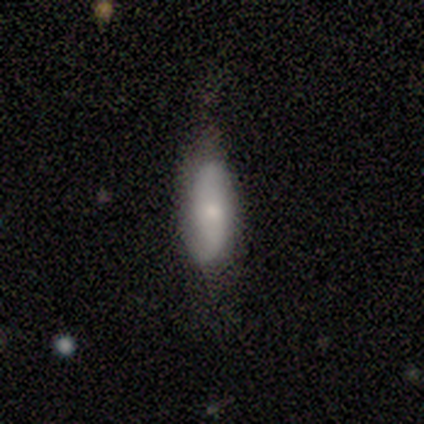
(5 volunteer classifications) A smooth galaxy with no disk features (60%) that is in between round and cigar-shaped (100%).

Vote fractions:
- Smooth or featured? smooth: 60% / featured or disk: 40% / star or artifact: 0%
- How rounded? in between: 100% / round: 0% / cigar-shaped: 0%
- Merging? none: 40% (tied) / minor disturbance: 40% (tied) / major disturbance: 20% / merger: 0%